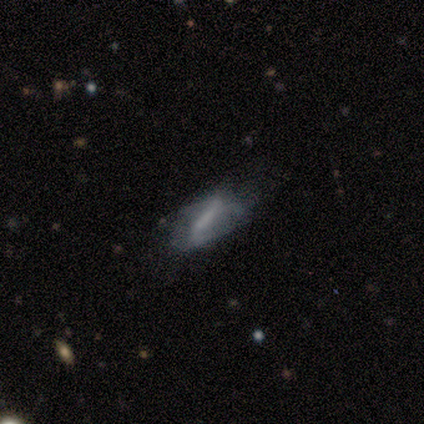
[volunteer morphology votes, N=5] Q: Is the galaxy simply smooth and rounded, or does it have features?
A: featured or disk — 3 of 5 (60%).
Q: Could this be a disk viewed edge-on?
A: no — 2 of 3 (67%).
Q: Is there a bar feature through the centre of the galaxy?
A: strong — 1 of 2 (50%, tied with weak).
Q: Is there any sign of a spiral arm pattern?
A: yes — 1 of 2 (50%, tied with no).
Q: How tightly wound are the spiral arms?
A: medium — 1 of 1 (100%).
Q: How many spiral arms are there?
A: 2 — 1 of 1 (100%).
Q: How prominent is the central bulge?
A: moderate — 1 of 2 (50%, tied with none).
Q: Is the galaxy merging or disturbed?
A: major disturbance — 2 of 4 (50%).